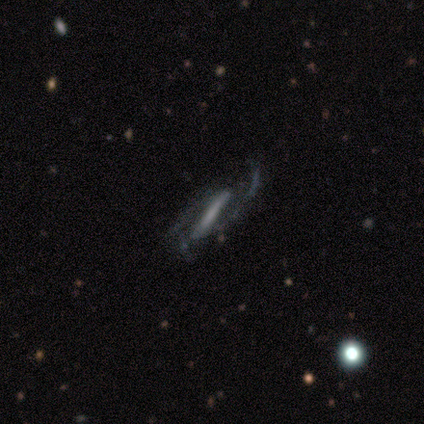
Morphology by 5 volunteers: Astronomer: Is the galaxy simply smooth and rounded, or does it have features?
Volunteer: featured or disk — 80%.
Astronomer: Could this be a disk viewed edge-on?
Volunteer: yes — 75%.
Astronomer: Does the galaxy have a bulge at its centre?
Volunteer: none — 67%.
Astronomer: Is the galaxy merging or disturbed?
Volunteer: none — 40%, tied with major disturbance at 40%.